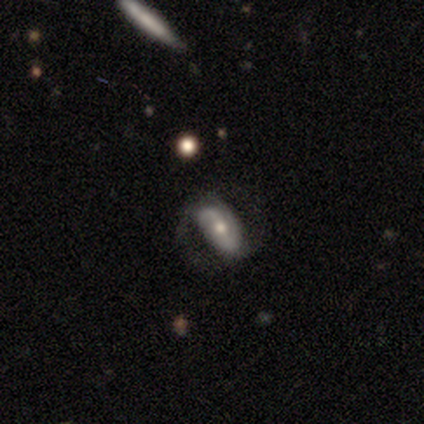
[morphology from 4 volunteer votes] type=featured or disk (100%); edge-on=no (100%); bar=weak (50%); spiral arms=yes (100%); winding=tight (100%); arm count=2 (75%); bulge=moderate (75%); merging=none (50%).